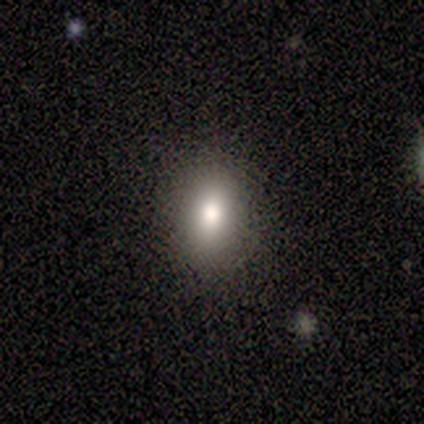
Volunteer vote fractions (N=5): Overall: smooth (80%). How rounded: in between (75%). Merging: none (100%).